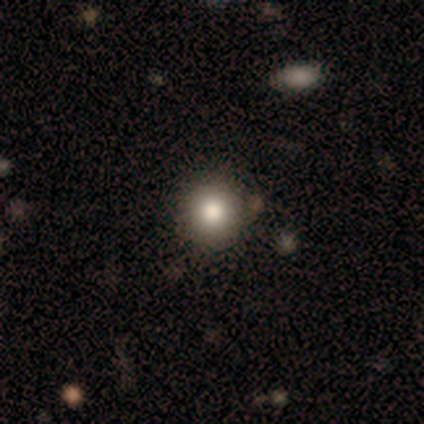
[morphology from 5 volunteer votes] smooth-or-featured: smooth: 60% | featured or disk: 20% | star or artifact: 20%
  how-rounded: round: 100% | in between: 0% | cigar-shaped: 0%
  merging: none: 75% | minor disturbance: 25% | major disturbance: 0% | merger: 0%